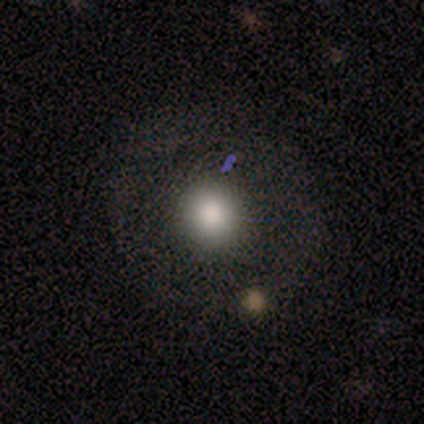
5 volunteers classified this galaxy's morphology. Smooth or featured? 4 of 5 (80%) said smooth. How rounded? 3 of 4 (75%) said round. Merging? 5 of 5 (100%) said none.